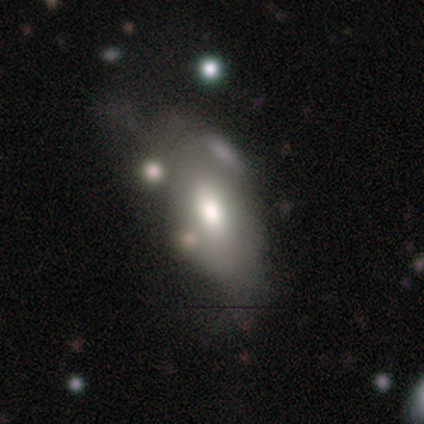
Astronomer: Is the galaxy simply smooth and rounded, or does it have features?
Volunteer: smooth — 68%.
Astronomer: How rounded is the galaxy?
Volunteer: in between — 94%.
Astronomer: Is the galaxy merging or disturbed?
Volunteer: merger — 27% (runner-up: minor disturbance, 18%).